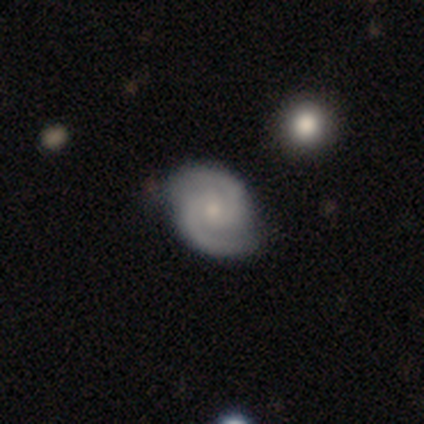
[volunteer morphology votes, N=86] Volunteers were most divided on "spiral winding": tight: 49%, medium: 42%, loose: 9%. More confident: edge-on disk — no (98%); spiral arms — yes (97%); spiral arm count — 2 (96%); smooth or featured — featured or disk (93%); merging — none (83%); bulge size — small (54%); bar — no (53%).